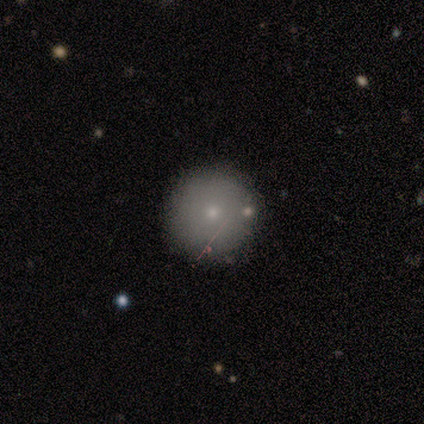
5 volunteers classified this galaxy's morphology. This is likely a smooth galaxy (60%). How rounded: clearly round (100%). Merging: likely none (75%).